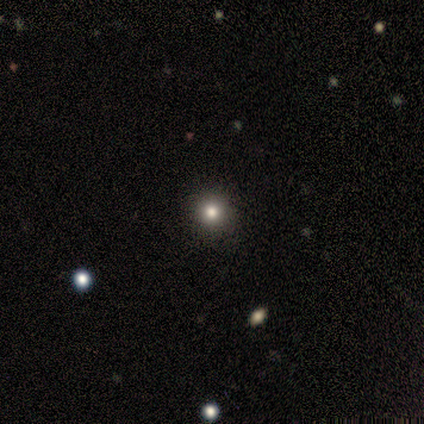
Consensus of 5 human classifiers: Smooth or featured?
  - smooth: 60% *
  - featured or disk: 20%
  - star or artifact: 20%
How rounded?
  - round: 100% *
  - in between: 0%
  - cigar-shaped: 0%
Merging?
  - none: 75% *
  - minor disturbance: 25%
  - major disturbance: 0%
  - merger: 0%